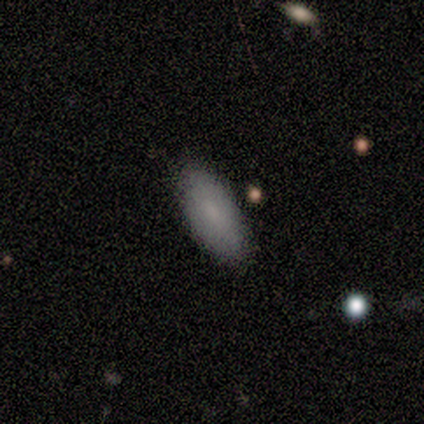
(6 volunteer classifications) smooth_or_featured: smooth (p=0.83) [alt: featured or disk p=0.17]
how_rounded: in between (p=0.60) [alt: cigar-shaped p=0.40]
merging: none (p=0.67) [alt: minor disturbance p=0.33]